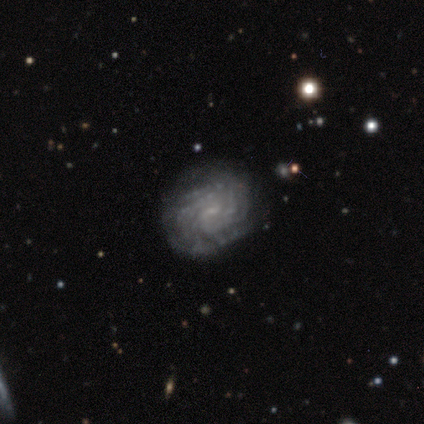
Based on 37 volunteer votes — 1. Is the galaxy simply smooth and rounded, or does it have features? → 81% featured or disk, 14% smooth, 5% star or artifact.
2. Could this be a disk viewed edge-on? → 97% no, 3% yes.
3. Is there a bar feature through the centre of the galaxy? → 52% no, 45% weak, 3% strong.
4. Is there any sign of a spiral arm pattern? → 97% yes, 3% no.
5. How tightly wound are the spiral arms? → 71% tight, 18% medium, 11% loose.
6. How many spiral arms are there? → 50% more than 4, 36% can't tell, 7% 4, 4% 2, 4% 3, 0% 1.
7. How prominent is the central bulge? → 76% small, 17% none, 3% dominant, 3% moderate, 0% large.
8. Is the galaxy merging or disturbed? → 86% none, 11% minor disturbance, 3% merger, 0% major disturbance.